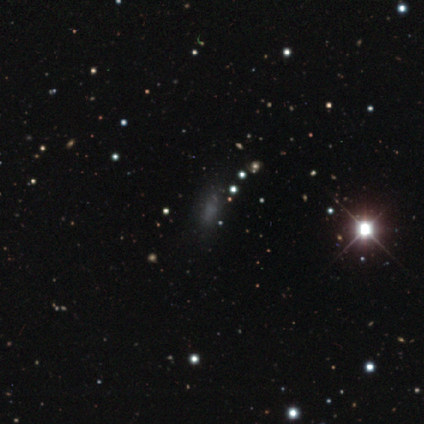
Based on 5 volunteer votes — Smooth or featured: smooth — 60% (featured or disk — 20%)
How rounded: cigar-shaped — 67% (in between — 33%)
Merging: none — 50% (tied with minor disturbance — 50%)